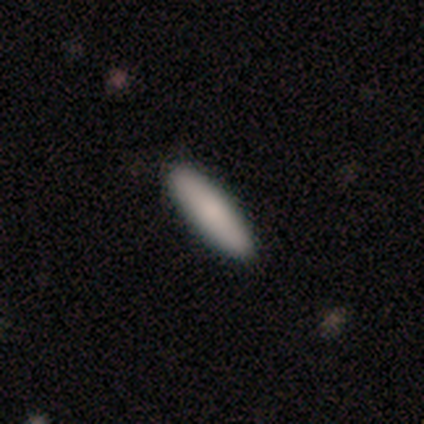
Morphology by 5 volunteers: Smooth or featured? 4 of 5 (80%) said smooth. How rounded? 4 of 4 (100%) said cigar-shaped. Merging? 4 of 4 (100%) said none.